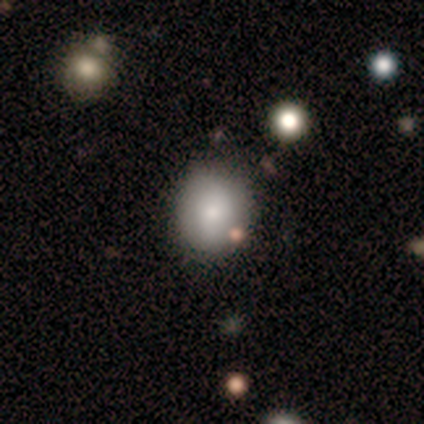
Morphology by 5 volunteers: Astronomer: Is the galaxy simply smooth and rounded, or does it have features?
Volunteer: smooth — 40%, tied with star or artifact at 40%.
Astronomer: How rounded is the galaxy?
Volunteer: round — 50%, tied with in between at 50%.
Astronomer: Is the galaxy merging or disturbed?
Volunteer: none — 100%.